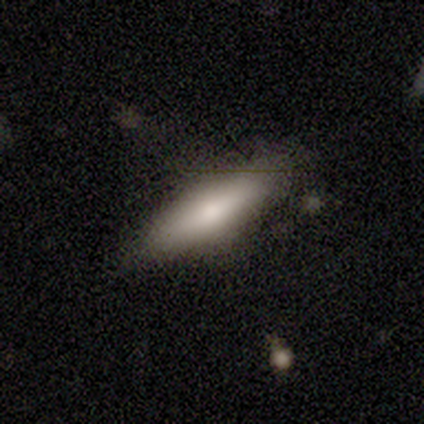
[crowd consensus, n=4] This appears to be a smooth galaxy with no disk features (50%, tied with featured or disk) that is in between round and cigar-shaped (50%, tied with cigar-shaped). Merging: none (50%).